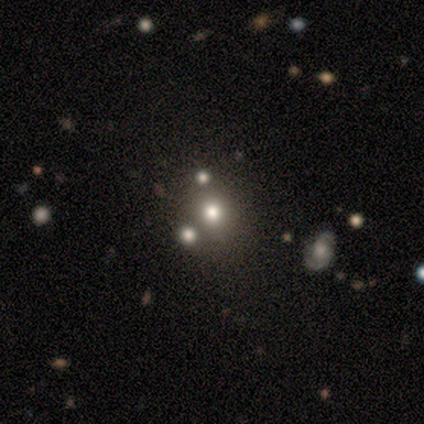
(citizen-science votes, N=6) Overall: smooth (83%). How rounded: round (80%). Merging: none (40%; minor disturbance 20%).